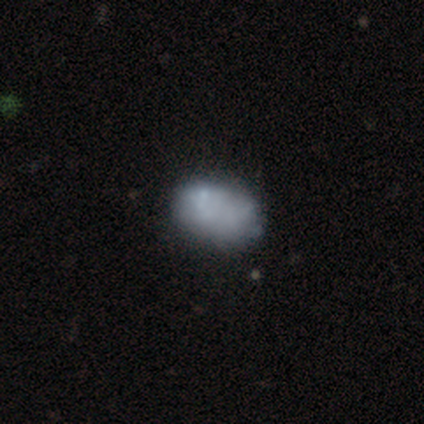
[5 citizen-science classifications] Morphology: type=smooth (60%); roundness=in between (100%); merging=major disturbance (50%).